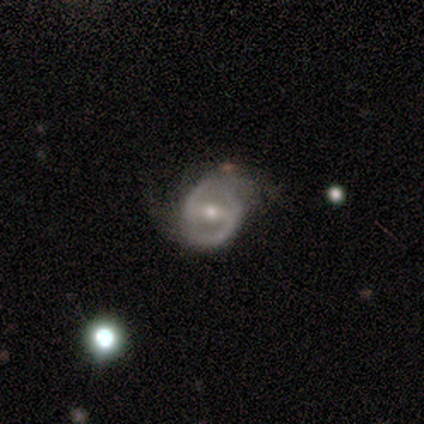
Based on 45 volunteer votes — smooth_or_featured: featured or disk (p=0.84) [alt: smooth p=0.11]
disk_edge_on: no (p=0.97) [alt: yes p=0.03]
bar: strong (p=0.57) [alt: weak p=0.30]
has_spiral_arms: yes (p=0.78) [alt: no p=0.22]
spiral_winding: medium (p=0.55) [alt: loose p=0.31]
spiral_arm_count: 2 (p=0.97) [alt: 1 p=0.03]
bulge_size: moderate (p=0.62) [alt: small p=0.32]
merging: none (p=0.58) [alt: minor disturbance p=0.30]